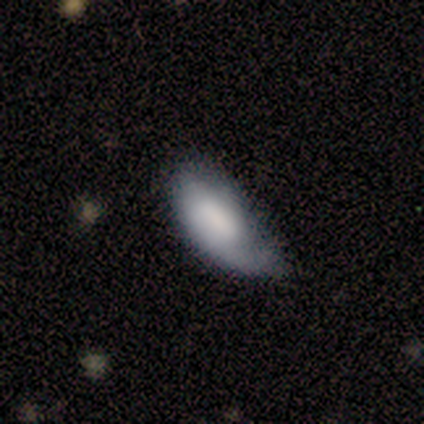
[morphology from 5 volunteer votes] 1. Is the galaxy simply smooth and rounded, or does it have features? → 60% smooth, 40% featured or disk, 0% star or artifact.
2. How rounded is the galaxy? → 100% in between, 0% round, 0% cigar-shaped.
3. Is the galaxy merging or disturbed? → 40% minor disturbance (tied), 40% major disturbance (tied), 20% none, 0% merger.